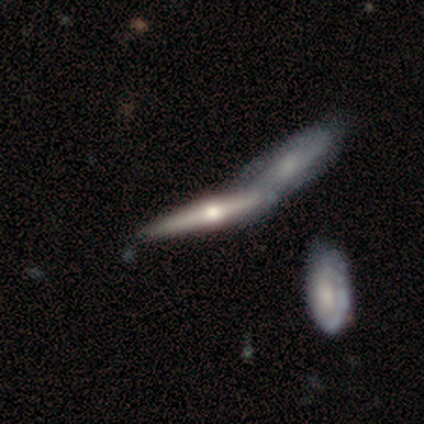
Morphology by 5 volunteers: type=featured or disk (80%); edge-on=yes (100%); edge-on bulge=rounded (100%); merging=merger (50%).